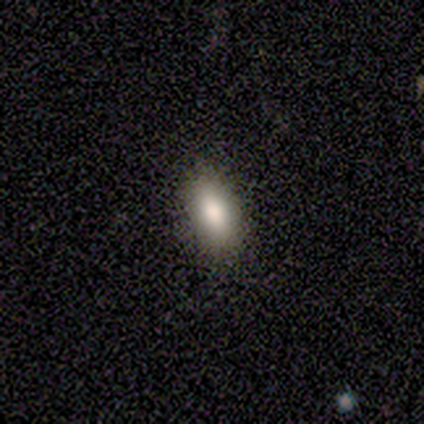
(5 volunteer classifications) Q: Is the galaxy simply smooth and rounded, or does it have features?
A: smooth — 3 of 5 (60%).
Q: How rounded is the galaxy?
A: in between — 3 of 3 (100%).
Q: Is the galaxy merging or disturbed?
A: none — 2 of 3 (67%).